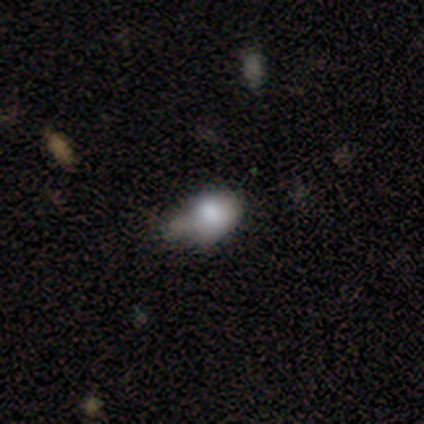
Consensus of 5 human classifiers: Smooth or featured?
  - smooth: 40% * (tied)
  - featured or disk: 40% * (tied)
  - star or artifact: 20%
How rounded?
  - in between: 100% *
  - round: 0%
  - cigar-shaped: 0%
Merging?
  - minor disturbance: 50% *
  - none: 25%
  - major disturbance: 25%
  - merger: 0%